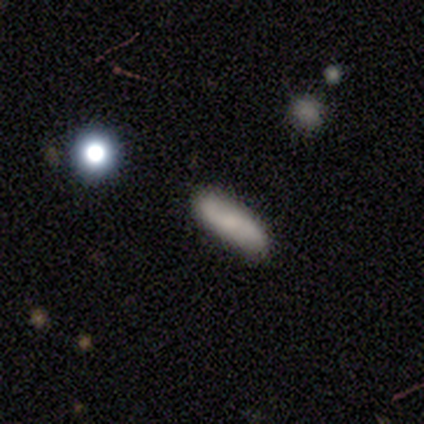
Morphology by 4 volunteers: Q: Smooth or featured?
A: smooth (75%); runner-up: featured or disk (25%)
Q: How rounded?
A: in between (67%); runner-up: cigar-shaped (33%)
Q: Merging?
A: none (100%)